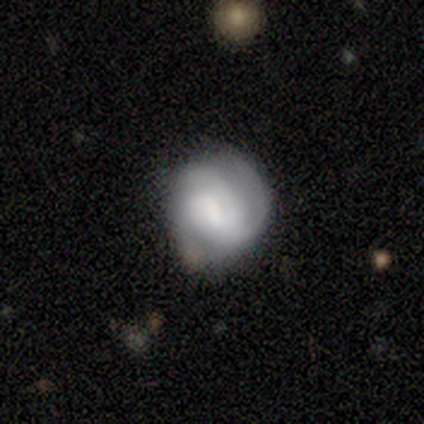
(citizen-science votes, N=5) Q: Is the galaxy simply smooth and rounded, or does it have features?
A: smooth — 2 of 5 (40%, tied with featured or disk).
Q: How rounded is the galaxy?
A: round — 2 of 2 (100%).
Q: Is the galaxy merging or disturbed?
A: none — 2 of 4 (50%).